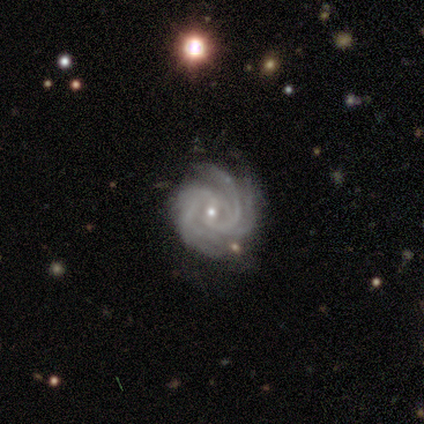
Morphology: type=featured or disk (95%); edge-on=no (97%); bar=no (43%); spiral arms=yes (100%); winding=tight (69%); arm count=4 (34%); bulge=small (74%); merging=none (76%).